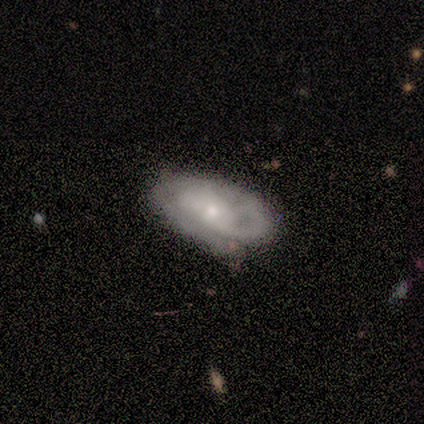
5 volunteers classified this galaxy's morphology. Q: Smooth or featured?
A: featured or disk (60%); runner-up: smooth (40%)
Q: Edge-on disk?
A: no (100%)
Q: Bar?
A: no (67%); runner-up: weak (33%)
Q: Spiral arms?
A: yes (67%); runner-up: no (33%)
Q: Spiral winding?
A: tight (50%); tied with: medium (50%)
Q: Spiral arm count?
A: can't tell (100%)
Q: Bulge size?
A: small (67%); runner-up: moderate (33%)
Q: Merging?
A: none (100%)